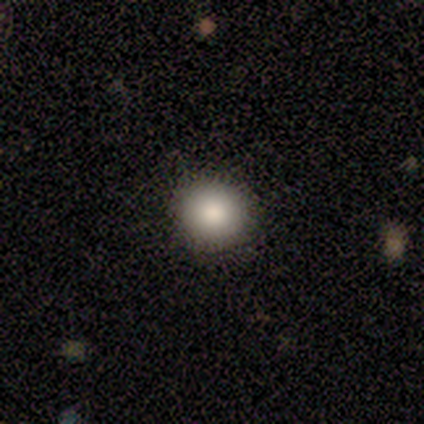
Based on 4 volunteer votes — Smooth or featured?
  - smooth: 100% *
  - featured or disk: 0%
  - star or artifact: 0%
How rounded?
  - round: 100% *
  - in between: 0%
  - cigar-shaped: 0%
Merging?
  - none: 100% *
  - minor disturbance: 0%
  - major disturbance: 0%
  - merger: 0%